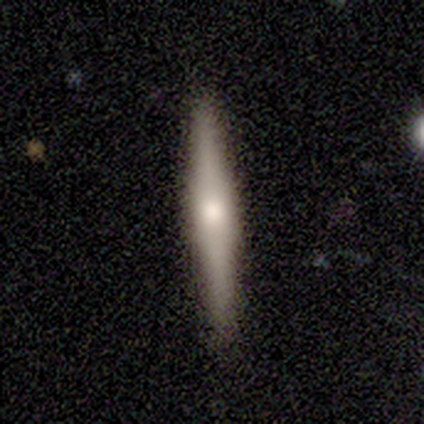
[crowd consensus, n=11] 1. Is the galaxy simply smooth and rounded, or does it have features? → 64% featured or disk, 27% smooth, 9% star or artifact.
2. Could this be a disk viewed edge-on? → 86% yes, 14% no.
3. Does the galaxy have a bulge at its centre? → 50% boxy, 33% rounded, 17% none.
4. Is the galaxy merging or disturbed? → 100% none, 0% minor disturbance, 0% major disturbance, 0% merger.